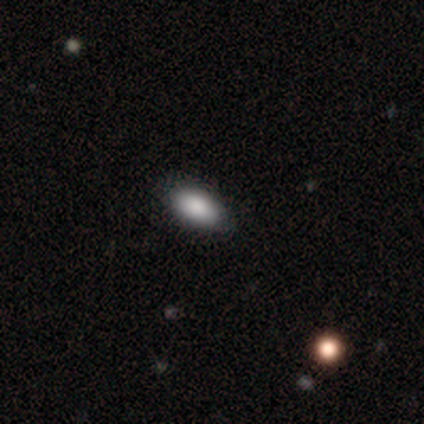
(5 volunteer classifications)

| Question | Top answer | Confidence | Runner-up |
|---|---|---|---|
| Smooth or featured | smooth | 80% | featured or disk (20%) |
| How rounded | in between | 100% | — |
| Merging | none | 80% | minor disturbance (20%) |